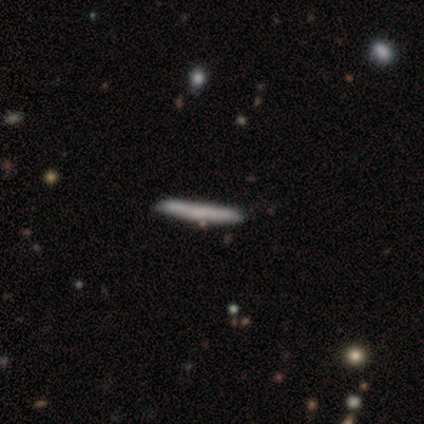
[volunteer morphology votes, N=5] A smooth galaxy with no disk features (80%) that is cigar-shaped (100%).

Vote fractions:
- Smooth or featured? smooth: 80% / featured or disk: 20% / star or artifact: 0%
- How rounded? cigar-shaped: 100% / round: 0% / in between: 0%
- Merging? none: 40% (tied) / minor disturbance: 40% (tied) / major disturbance: 20% / merger: 0%